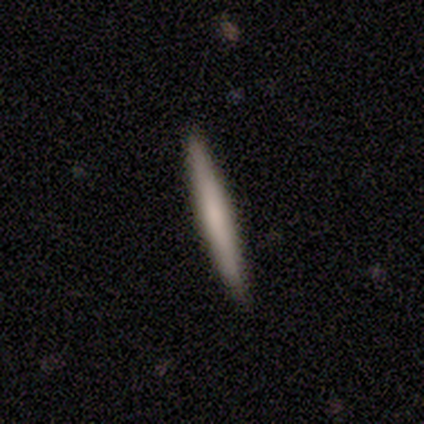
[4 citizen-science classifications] Morphology: type=smooth (75%); roundness=cigar-shaped (100%); merging=none (100%).